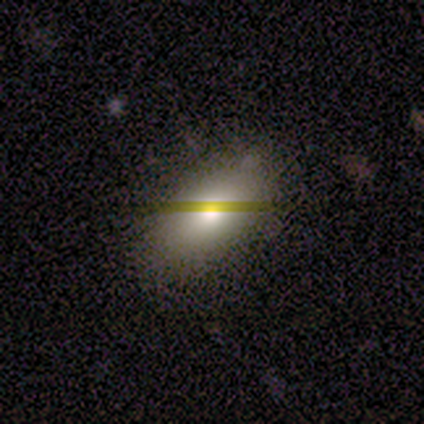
Consensus on every question: smooth or featured — smooth (100%); how rounded — in between (100%); merging — none (100%).